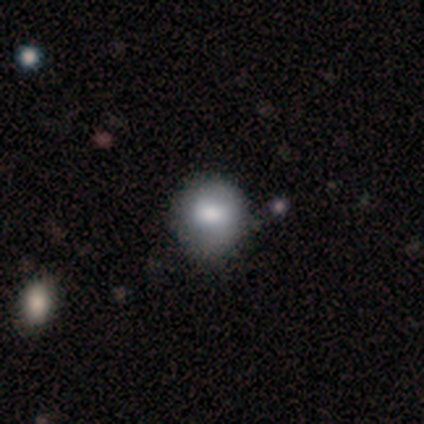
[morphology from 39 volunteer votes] This appears to be a smooth galaxy with no disk features (62%) that is round (100%). Merging: none (81%).